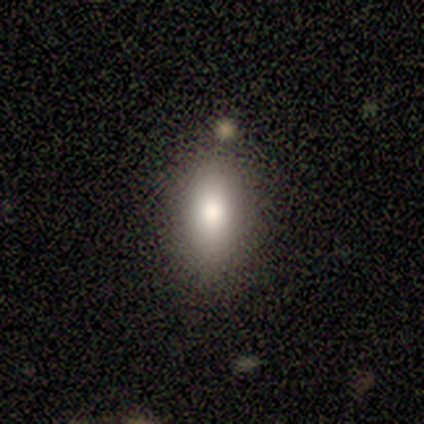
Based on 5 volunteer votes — Volunteers were most divided on "how rounded": in between: 75%, round: 25%, cigar-shaped: 0%. More confident: merging — none (100%); smooth or featured — smooth (80%).